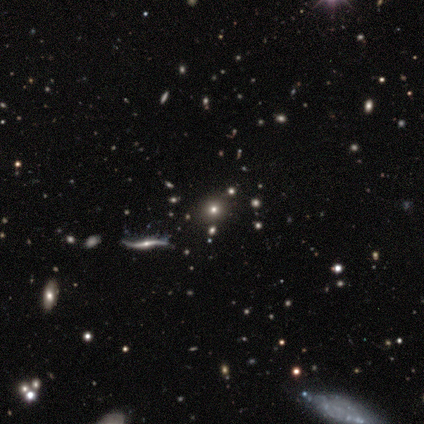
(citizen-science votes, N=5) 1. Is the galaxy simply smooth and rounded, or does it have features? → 60% featured or disk, 20% smooth, 20% star or artifact.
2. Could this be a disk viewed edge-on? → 67% no, 33% yes.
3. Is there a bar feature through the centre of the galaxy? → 50% weak (tied), 50% no (tied), 0% strong.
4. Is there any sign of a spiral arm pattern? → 100% yes, 0% no.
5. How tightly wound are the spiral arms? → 100% loose, 0% tight, 0% medium.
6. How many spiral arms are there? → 100% 2, 0% 1, 0% 3, 0% 4, 0% more than 4, 0% can't tell.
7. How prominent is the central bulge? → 100% small, 0% dominant, 0% large, 0% moderate, 0% none.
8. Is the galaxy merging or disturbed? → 100% none, 0% minor disturbance, 0% major disturbance, 0% merger.